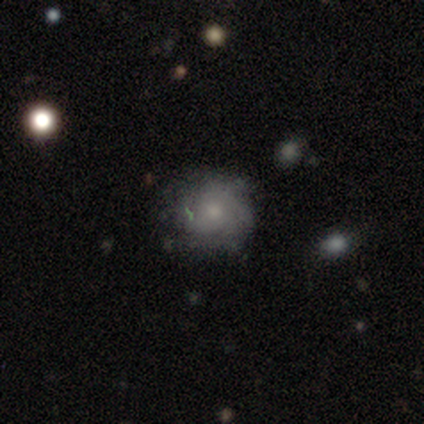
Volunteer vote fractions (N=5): A smooth galaxy with no disk features (60%) that is round (100%).

Vote fractions:
- Smooth or featured? smooth: 60% / featured or disk: 40% / star or artifact: 0%
- How rounded? round: 100% / in between: 0% / cigar-shaped: 0%
- Merging? none: 80% / minor disturbance: 20% / major disturbance: 0% / merger: 0%